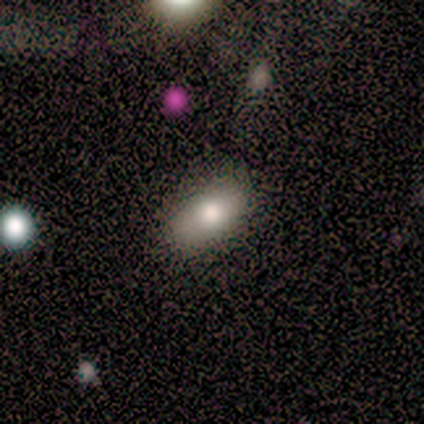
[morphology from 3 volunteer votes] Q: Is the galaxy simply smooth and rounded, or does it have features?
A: smooth — 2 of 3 (67%).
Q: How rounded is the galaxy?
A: in between — 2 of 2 (100%).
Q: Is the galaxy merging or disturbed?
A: none — 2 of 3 (67%).